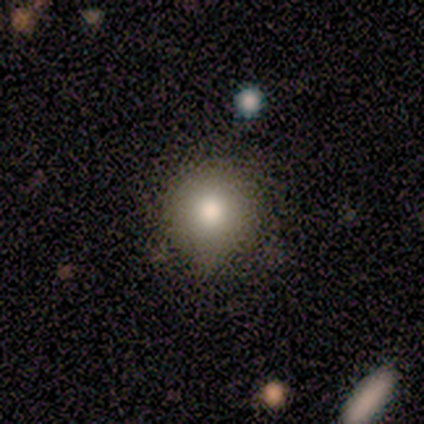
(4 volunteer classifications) Smooth or featured? 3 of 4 (75%) said smooth. How rounded? 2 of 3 (67%) said round. Merging? 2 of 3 (67%) said none.